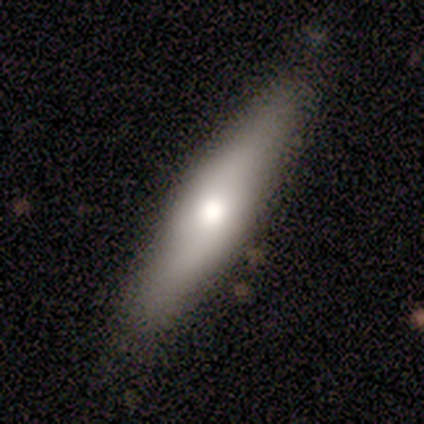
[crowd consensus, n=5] This appears to be a smooth galaxy with no disk features (80%) that is in between round and cigar-shaped (50%, tied with cigar-shaped). Merging: none (60%).